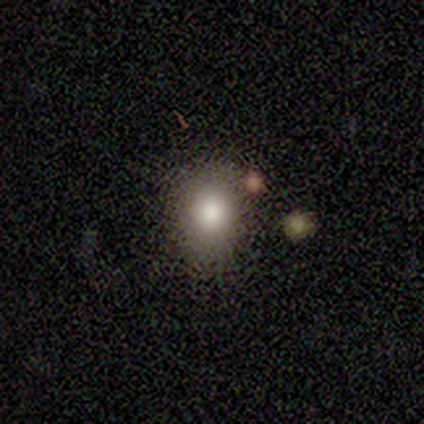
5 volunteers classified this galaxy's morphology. smooth-or-featured: smooth: 60% | featured or disk: 20% | star or artifact: 20%
  how-rounded: round: 67% | in between: 33% | cigar-shaped: 0%
  merging: none: 75% | minor disturbance: 25% | major disturbance: 0% | merger: 0%